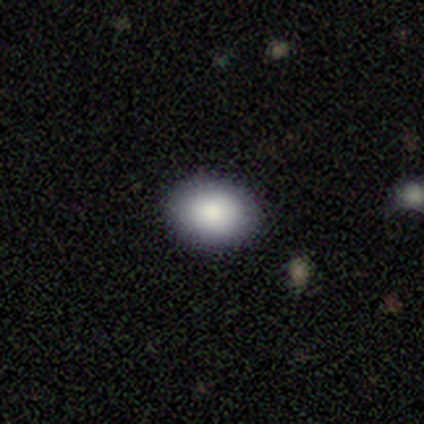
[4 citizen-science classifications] smooth_or_featured: smooth (p=0.75) [alt: featured or disk p=0.25]
how_rounded: in between (p=1.00)
merging: none (p=1.00)